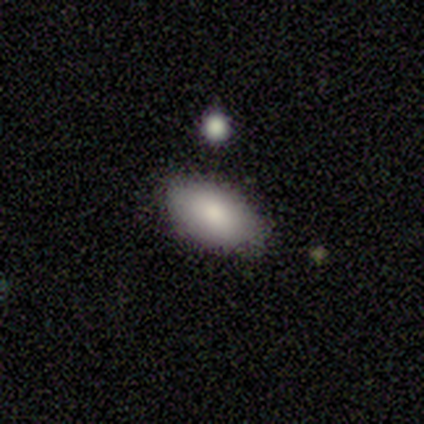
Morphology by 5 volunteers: A smooth galaxy with no disk features (100%) that is in between round and cigar-shaped (80%). Merging: none (100%).